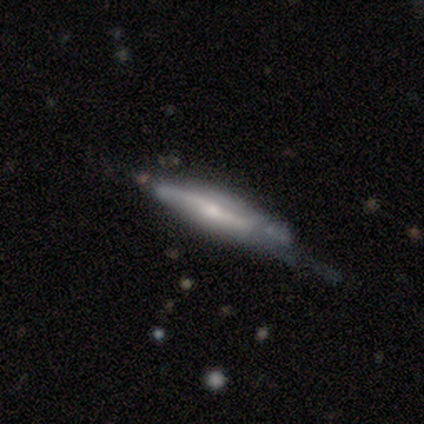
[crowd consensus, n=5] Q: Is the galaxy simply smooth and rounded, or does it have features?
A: featured or disk — 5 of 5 (100%).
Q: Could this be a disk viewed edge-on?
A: yes — 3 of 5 (60%).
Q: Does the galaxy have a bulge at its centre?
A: rounded — 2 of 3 (67%).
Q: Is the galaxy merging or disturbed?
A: major disturbance — 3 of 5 (60%).